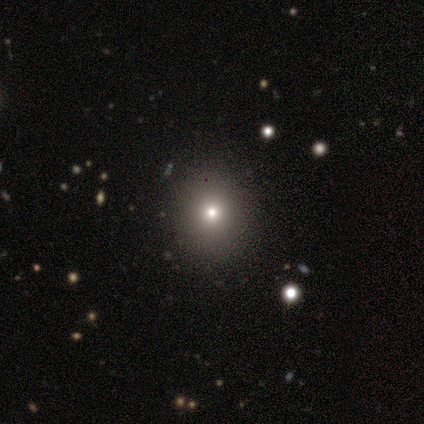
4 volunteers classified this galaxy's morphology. Q: Smooth or featured?
A: smooth (75%); runner-up: star or artifact (25%)
Q: How rounded?
A: round (100%)
Q: Merging?
A: none (67%); runner-up: minor disturbance (33%)